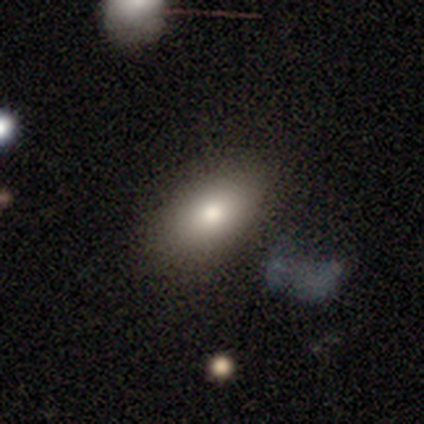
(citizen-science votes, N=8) Smooth or featured? 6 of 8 (75%) said smooth. How rounded? 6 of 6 (100%) said in between. Merging? 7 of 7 (100%) said none.